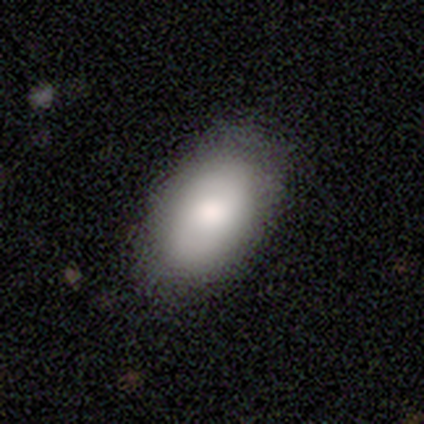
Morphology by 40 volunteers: This appears to be a smooth galaxy with no disk features (85%) that is in between round and cigar-shaped (88%). Merging: none (54%).